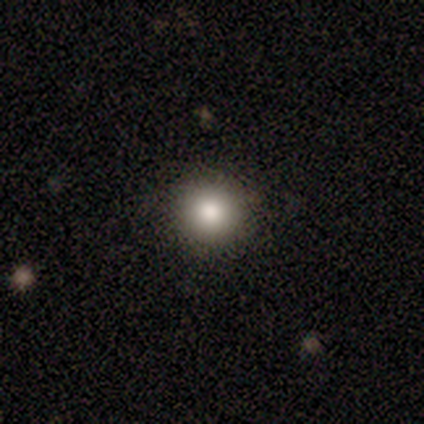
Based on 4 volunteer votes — smooth-or-featured: smooth: 100% | featured or disk: 0% | star or artifact: 0%
  how-rounded: round: 100% | in between: 0% | cigar-shaped: 0%
  merging: none: 100% | minor disturbance: 0% | major disturbance: 0% | merger: 0%